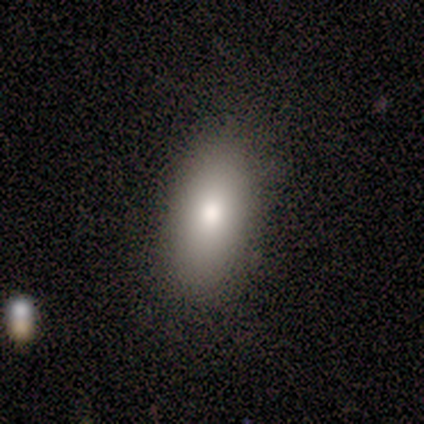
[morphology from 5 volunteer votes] Smooth or featured? smooth (60%)
How rounded? in between (100%)
Merging? none (80%)